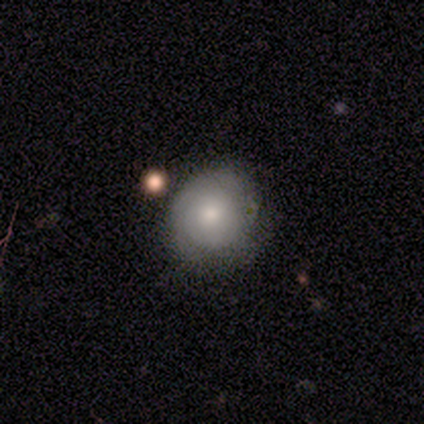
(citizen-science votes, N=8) Smooth or featured? featured or disk (62%)
Edge-on disk? no (100%)
Bar? no (80%)
Spiral arms? no (60%)
Bulge size? small (80%)
Merging? none (88%)